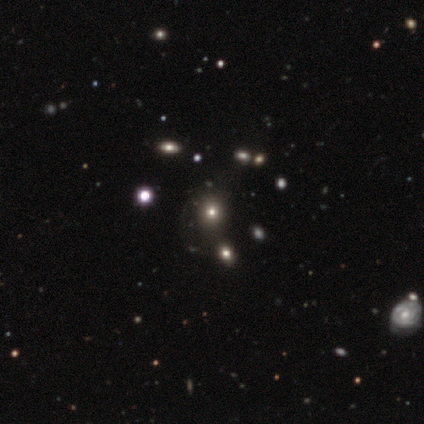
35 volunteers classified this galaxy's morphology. type=smooth (63%); roundness=round (64%); merging=none (46%).